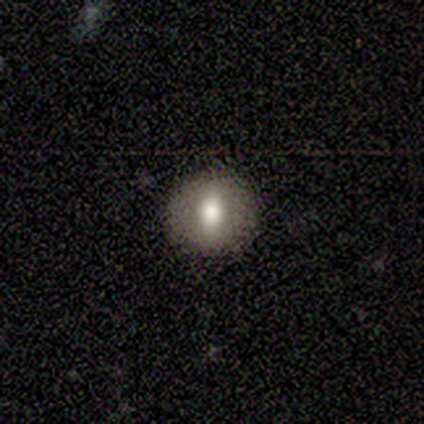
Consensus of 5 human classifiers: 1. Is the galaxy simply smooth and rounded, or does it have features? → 60% smooth, 20% featured or disk, 20% star or artifact.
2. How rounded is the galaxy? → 67% round, 33% in between, 0% cigar-shaped.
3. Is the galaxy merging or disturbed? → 100% none, 0% minor disturbance, 0% major disturbance, 0% merger.